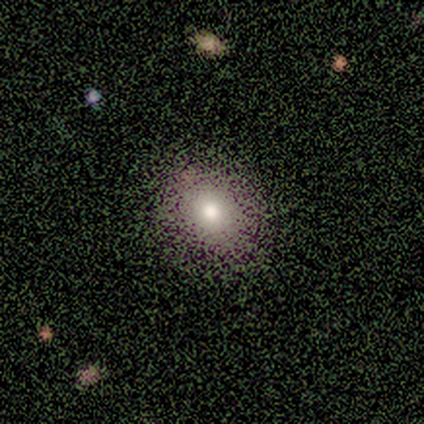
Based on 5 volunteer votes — Smooth or featured?
  - featured or disk: 60% *
  - smooth: 20%
  - star or artifact: 20%
Edge-on disk?
  - no: 67% *
  - yes: 33%
Bar?
  - no: 100% *
  - strong: 0%
  - weak: 0%
Spiral arms?
  - yes: 50% * (tied)
  - no: 50% * (tied)
Spiral winding?
  - tight: 100% *
  - medium: 0%
  - loose: 0%
Spiral arm count?
  - can't tell: 100% *
  - 1: 0%
  - 2: 0%
  - 3: 0%
  - 4: 0%
  - more than 4: 0%
Bulge size?
  - large: 50% * (tied)
  - small: 50% * (tied)
  - dominant: 0%
  - moderate: 0%
  - none: 0%
Merging?
  - none: 75% *
  - minor disturbance: 25%
  - major disturbance: 0%
  - merger: 0%